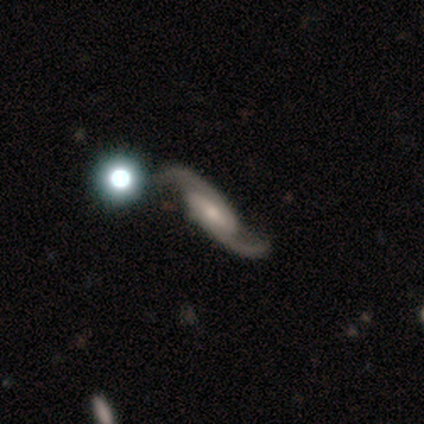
This is clearly a featured or disk galaxy (87%). It is clearly not viewed edge-on (88%). Bar: marginally weak (45%). Spiral arm pattern: clearly yes (97%). Spiral arm count: clearly 2 (93%). Spiral winding: likely loose (61%). Central bulge: marginally small (41%). Merging: likely none (63%).